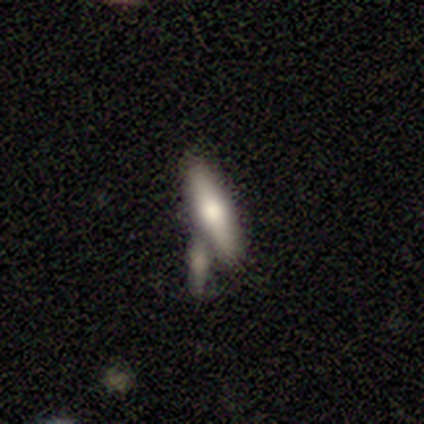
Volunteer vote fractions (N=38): smooth-or-featured: smooth: 66% | featured or disk: 32% | star or artifact: 3%
  how-rounded: cigar-shaped: 64% | in between: 36% | round: 0%
  merging: merger: 43% | none: 38% | minor disturbance: 16% | major disturbance: 3%